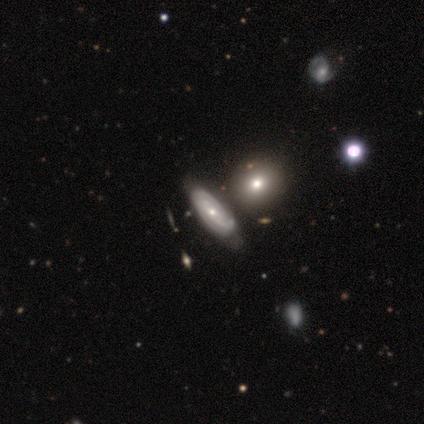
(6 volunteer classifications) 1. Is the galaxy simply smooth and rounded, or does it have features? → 67% featured or disk, 17% smooth, 17% star or artifact.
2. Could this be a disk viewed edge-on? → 100% no, 0% yes.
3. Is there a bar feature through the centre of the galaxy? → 75% no, 25% weak, 0% strong.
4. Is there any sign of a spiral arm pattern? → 75% yes, 25% no.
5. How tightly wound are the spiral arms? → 100% tight, 0% medium, 0% loose.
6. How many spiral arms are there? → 67% 2, 33% 1, 0% 3, 0% 4, 0% more than 4, 0% can't tell.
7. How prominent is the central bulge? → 50% moderate (tied), 50% small (tied), 0% dominant, 0% large, 0% none.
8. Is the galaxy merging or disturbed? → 40% none (tied), 40% minor disturbance (tied), 20% major disturbance, 0% merger.